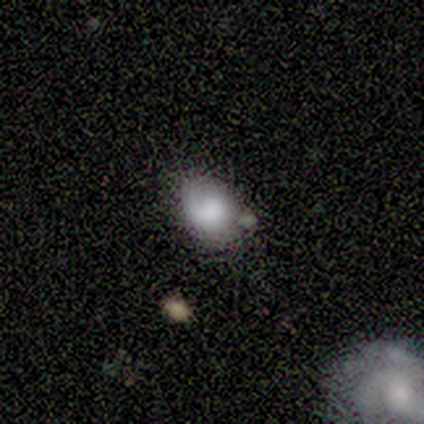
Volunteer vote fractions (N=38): Volunteers were most divided on "merging": none: 51%, minor disturbance: 29%, major disturbance: 11%, merger: 9%. More confident: how rounded — in between (68%); smooth or featured — smooth (66%).